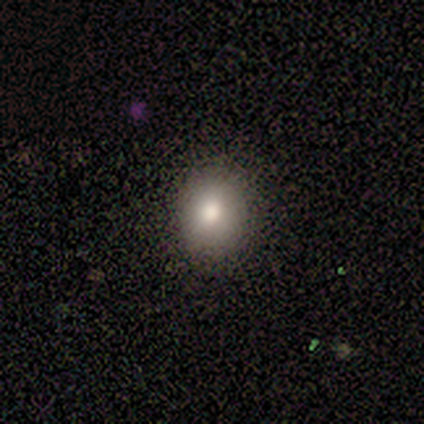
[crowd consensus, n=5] smooth 100%, featured or disk 0%, star or artifact 0%. Down the decision tree: how rounded — round (80%); merging — minor disturbance (60%).